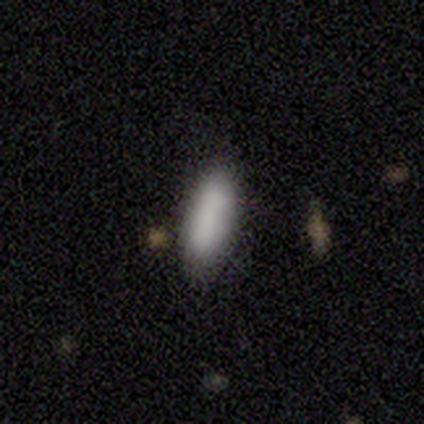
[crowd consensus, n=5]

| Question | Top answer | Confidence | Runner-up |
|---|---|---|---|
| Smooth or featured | smooth | 100% | — |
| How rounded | in between | 80% | cigar-shaped (20%) |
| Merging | none | 60% | minor disturbance (20%) |